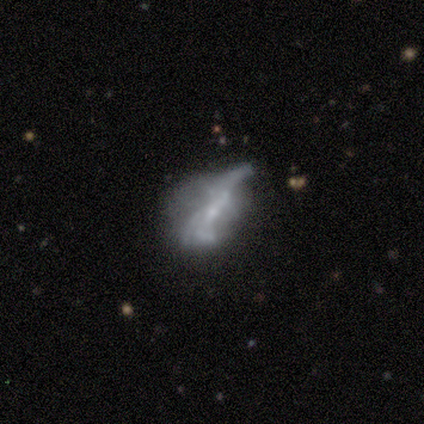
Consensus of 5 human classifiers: A smooth galaxy with no disk features (40%, tied with featured or disk) that is in between round and cigar-shaped (50%, tied with cigar-shaped).

Vote fractions:
- Smooth or featured? smooth: 40% (tied) / featured or disk: 40% (tied) / star or artifact: 20%
- How rounded? in between: 50% (tied) / cigar-shaped: 50% (tied) / round: 0%
- Merging? minor disturbance: 50% / none: 25% / major disturbance: 25% / merger: 0%